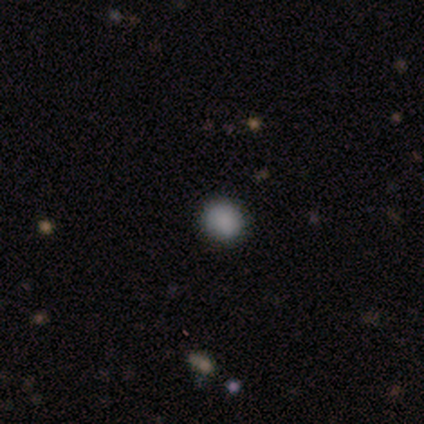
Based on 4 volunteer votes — Smooth or featured? 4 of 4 (100%) said smooth. How rounded? 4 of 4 (100%) said round. Merging? 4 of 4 (100%) said none.